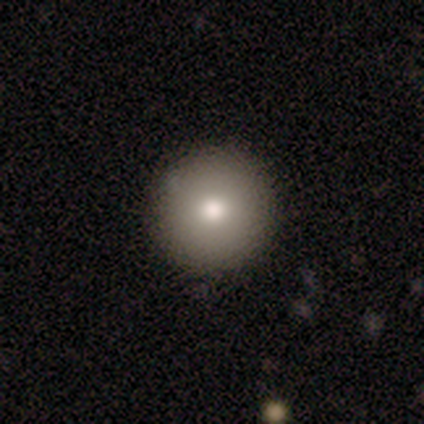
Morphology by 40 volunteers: smooth 85%, featured or disk 10%, star or artifact 5%. Down the decision tree: how rounded — round (97%); merging — none (89%).